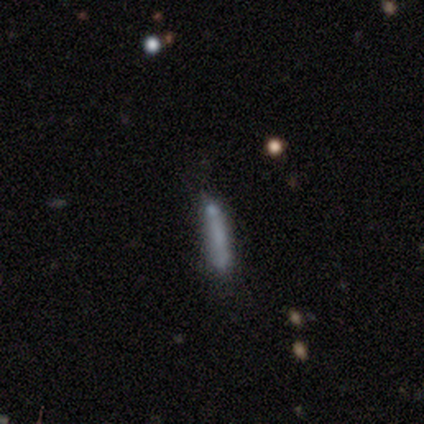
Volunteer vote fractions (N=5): Q: Smooth or featured?
A: smooth (80%); runner-up: featured or disk (20%)
Q: How rounded?
A: cigar-shaped (100%)
Q: Merging?
A: none (40%); tied with: minor disturbance (40%)